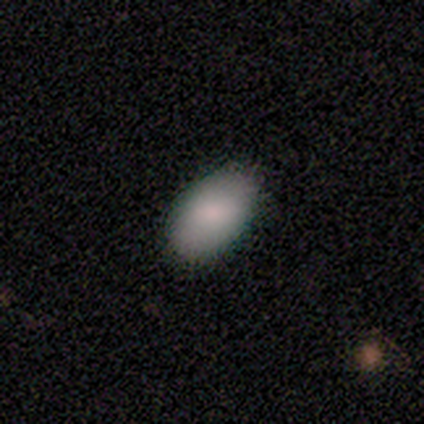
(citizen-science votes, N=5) Morphology: type=smooth (100%); roundness=in between (80%); merging=none (100%).